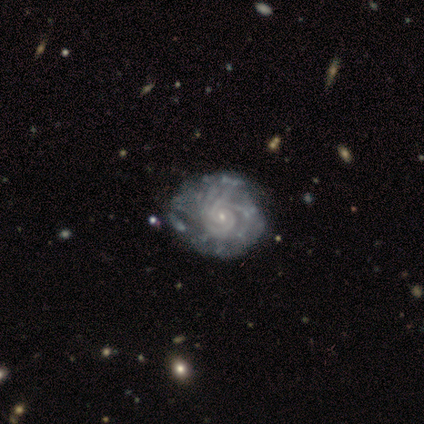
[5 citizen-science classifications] Morphology: type=featured or disk (80%); edge-on=no (100%); bar=no (100%); spiral arms=yes (100%); winding=tight (75%); arm count=can't tell (75%); bulge=small (100%); merging=none (50%, tied with minor disturbance).